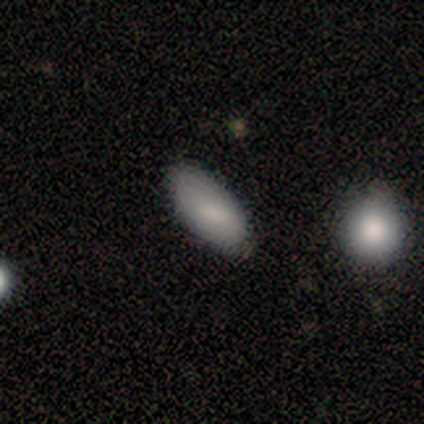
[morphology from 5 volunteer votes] Smooth or featured? 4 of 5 (80%) said smooth. How rounded? 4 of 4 (100%) said in between. Merging? 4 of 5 (80%) said none.